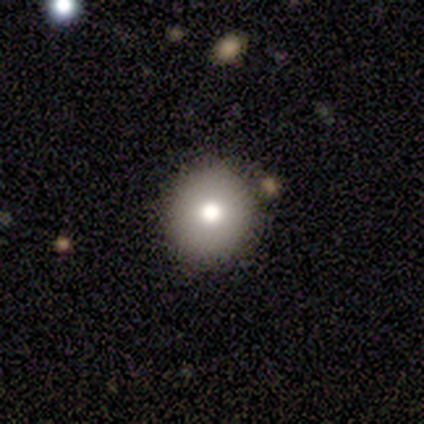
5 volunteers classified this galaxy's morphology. Volunteers were most divided on "merging": none: 80%, minor disturbance: 20%, major disturbance: 0%, merger: 0%. More confident: smooth or featured — smooth (100%); how rounded — round (100%).